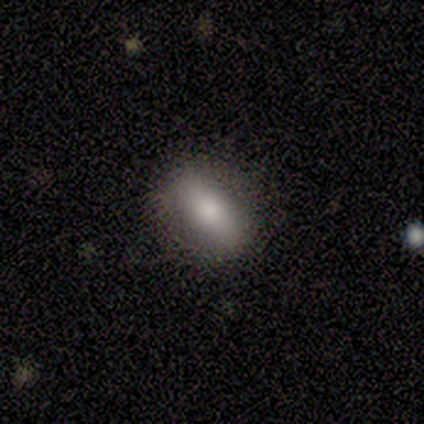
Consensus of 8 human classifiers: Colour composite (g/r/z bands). It shows a smooth galaxy with no disk features (62%) that is in between round and cigar-shaped (40%, tied with cigar-shaped). Merging: none (100%).